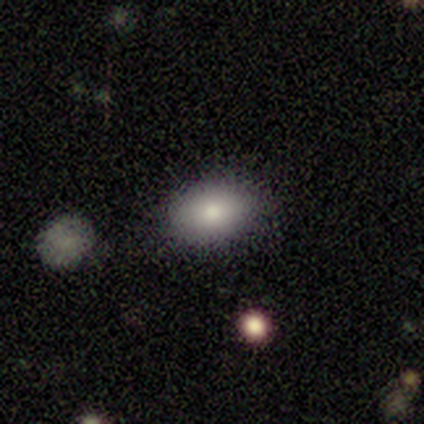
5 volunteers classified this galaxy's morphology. This is clearly a smooth galaxy (100%). How rounded: clearly in between (100%). Merging: likely none (60%).